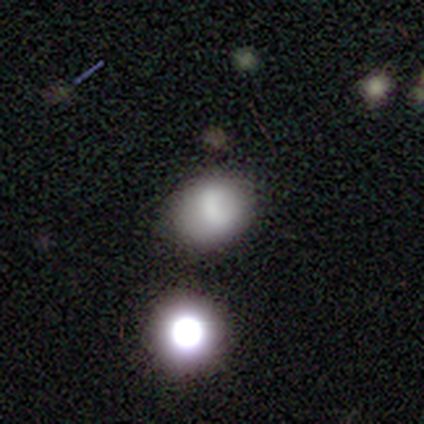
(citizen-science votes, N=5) Q: Smooth or featured?
A: smooth (100%)
Q: How rounded?
A: round (60%); runner-up: in between (40%)
Q: Merging?
A: none (80%); runner-up: merger (20%)